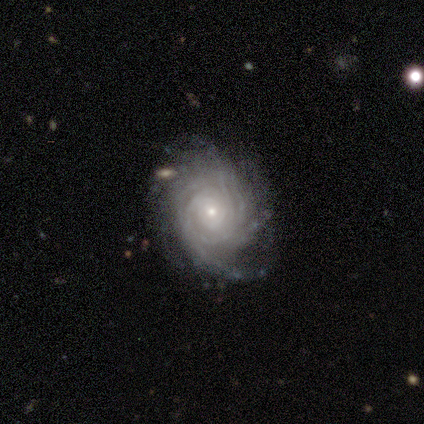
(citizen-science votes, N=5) Smooth or featured? featured or disk (80%)
Edge-on disk? no (100%)
Bar? no (75%)
Spiral arms? yes (100%)
Spiral winding? tight (50%)
Spiral arm count? can't tell (75%)
Bulge size? small (75%)
Merging? none (75%)